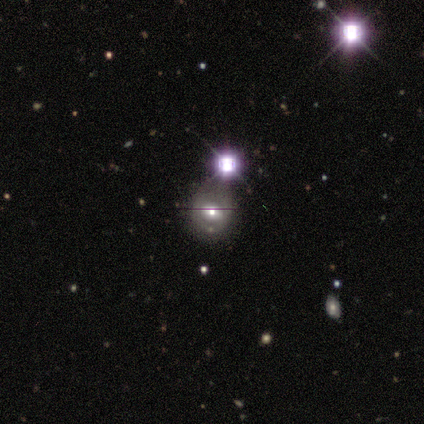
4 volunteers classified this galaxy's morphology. This appears to be a smooth galaxy with no disk features (50%, tied with featured or disk) that is round (50%, tied with in between). Merging: none (50%, tied with minor disturbance).